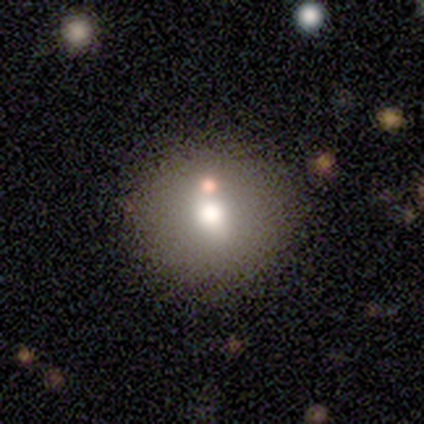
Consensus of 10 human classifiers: Q: Smooth or featured?
A: smooth (60%); runner-up: featured or disk (30%)
Q: How rounded?
A: round (100%)
Q: Merging?
A: none (89%); runner-up: minor disturbance (11%)